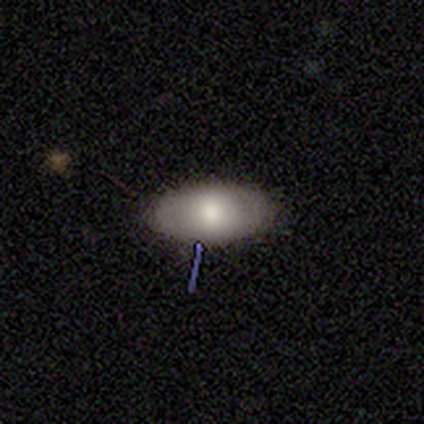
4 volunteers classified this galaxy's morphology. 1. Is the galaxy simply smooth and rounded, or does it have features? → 75% smooth, 25% featured or disk, 0% star or artifact.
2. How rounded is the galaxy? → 100% in between, 0% round, 0% cigar-shaped.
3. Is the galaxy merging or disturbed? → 100% none, 0% minor disturbance, 0% major disturbance, 0% merger.